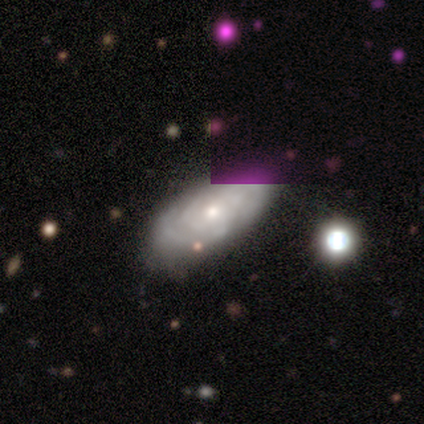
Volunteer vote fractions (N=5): Smooth or featured: featured or disk — 60% (smooth — 40%)
Edge-on disk: no — 100%
Bar: no — 67% (weak — 33%)
Spiral arms: yes — 67% (no — 33%)
Spiral winding: tight — 50% (tied with medium — 50%)
Spiral arm count: 1 — 50% (tied with can't tell — 50%)
Bulge size: moderate — 67% (small — 33%)
Merging: none — 80% (major disturbance — 20%)